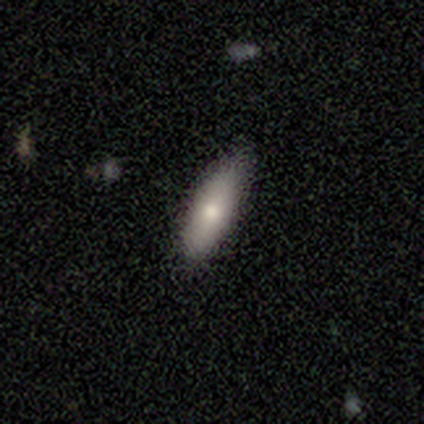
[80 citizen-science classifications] A smooth galaxy with no disk features (79%) that is in between round and cigar-shaped (54%).

Vote fractions:
- Smooth or featured? smooth: 79% / featured or disk: 16% / star or artifact: 5%
- How rounded? in between: 54% / cigar-shaped: 46% / round: 0%
- Merging? none: 45% / minor disturbance: 5% / major disturbance: 1% / merger: 1%